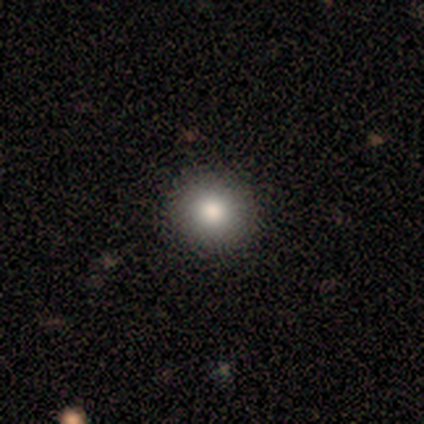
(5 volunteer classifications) Smooth or featured?
  - smooth: 80% *
  - featured or disk: 20%
  - star or artifact: 0%
How rounded?
  - round: 75% *
  - in between: 25%
  - cigar-shaped: 0%
Merging?
  - none: 80% *
  - minor disturbance: 20%
  - major disturbance: 0%
  - merger: 0%